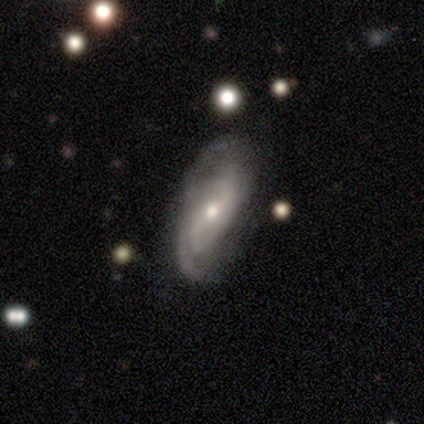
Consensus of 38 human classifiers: A featured or disk galaxy (92%) with no bar (45%), 2 (42%, tied with can't tell) medium (46%) spiral arms (84%) and a moderate central bulge (58%).

Vote fractions:
- Smooth or featured? featured or disk: 92% / smooth: 5% / star or artifact: 3%
- Edge-on disk? no: 89% / yes: 11%
- Bar? no: 45% / weak: 39% / strong: 16%
- Spiral arms? yes: 84% / no: 16%
- Spiral winding? medium: 46% / loose: 31% / tight: 23%
- Spiral arm count? 2: 42% (tied) / can't tell: 42% (tied) / 1: 8% / 3: 8% / 4: 0% / more than 4: 0%
- Bulge size? moderate: 58% / small: 39% / none: 3% / dominant: 0% / large: 0%
- Merging? none: 78% / minor disturbance: 11% / major disturbance: 8% / merger: 3%